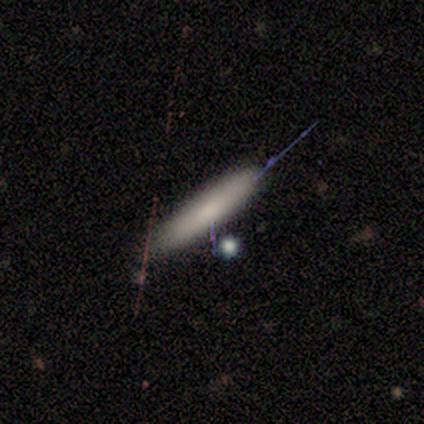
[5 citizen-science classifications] This appears to be a smooth galaxy with no disk features (80%) that is cigar-shaped (100%). Merging: none (80%).